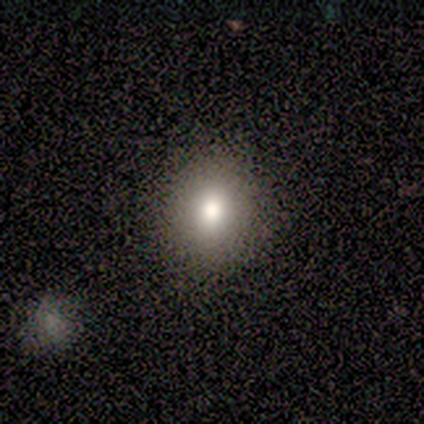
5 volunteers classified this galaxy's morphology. Smooth or featured? smooth (100%)
How rounded? round (80%)
Merging? none (100%)